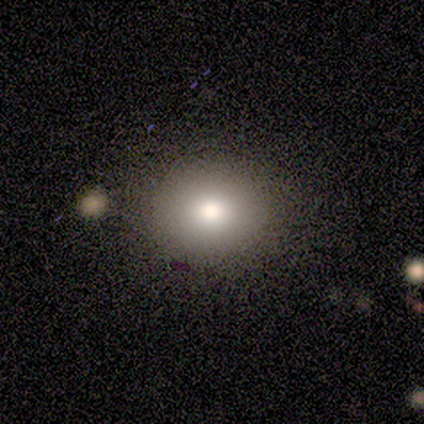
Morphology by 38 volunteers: type=smooth (74%); roundness=round (68%); merging=none (56%).